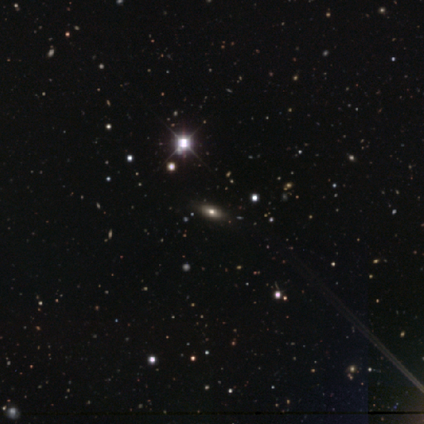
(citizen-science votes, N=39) Q: Smooth or featured?
A: smooth (46%); runner-up: star or artifact (38%)
Q: How rounded?
A: in between (78%); runner-up: cigar-shaped (17%)
Q: Merging?
A: none (58%); runner-up: merger (4%)